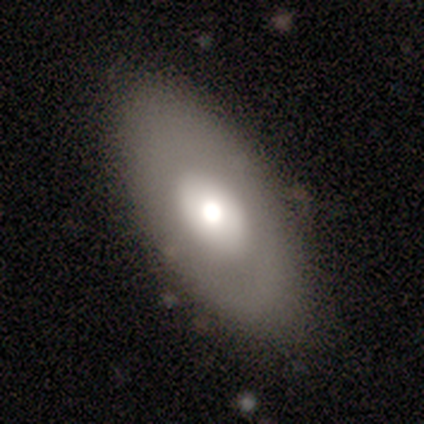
This is possibly a smooth galaxy (50%). How rounded: possibly round (50%, tied with in between). Merging: likely none (67%).